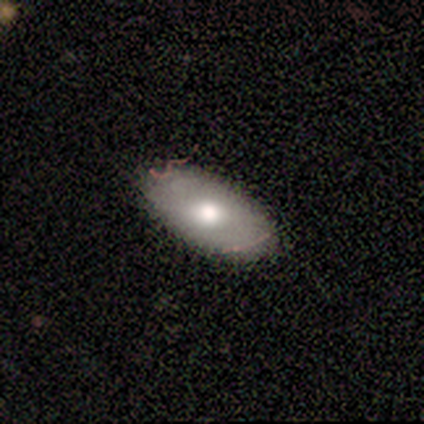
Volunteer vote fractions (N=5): This is clearly a smooth galaxy (80%). How rounded: clearly in between (100%). Merging: likely none (60%).